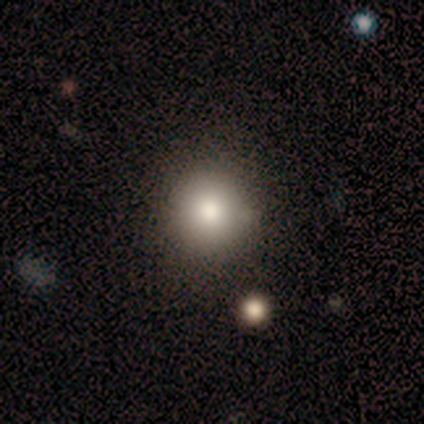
Overall: smooth (100%). How rounded: round (100%). Merging: none (100%).